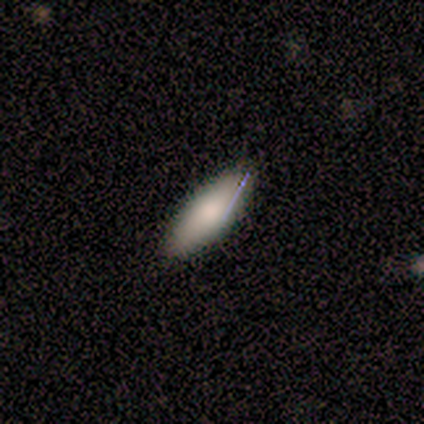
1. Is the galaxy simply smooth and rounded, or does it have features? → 60% smooth, 40% star or artifact, 0% featured or disk.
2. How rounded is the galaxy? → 67% cigar-shaped, 33% in between, 0% round.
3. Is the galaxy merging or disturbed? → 100% none, 0% minor disturbance, 0% major disturbance, 0% merger.